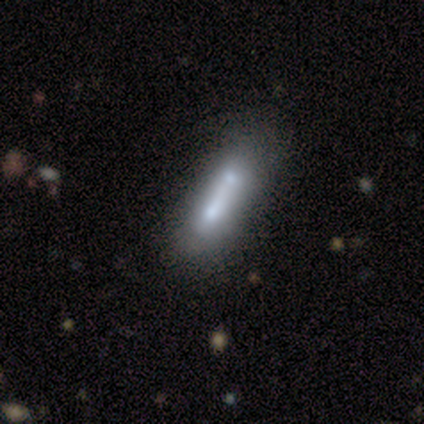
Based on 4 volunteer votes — This is likely a smooth galaxy (75%). How rounded: clearly cigar-shaped (100%). Merging: possibly none (50%, tied with merger).